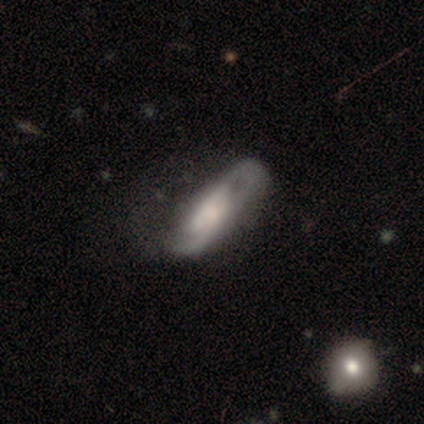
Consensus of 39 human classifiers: Overall: featured or disk (82%). Edge-on disk: no (94%). Bar: no (63%; weak 27%). Spiral arms: yes (83%). Spiral arm count: 2 (60%; can't tell 28%). Spiral winding: medium (48%; tight 28%). Bulge size: moderate (30%; small 23%). Merging: major disturbance (28%; none 21%).